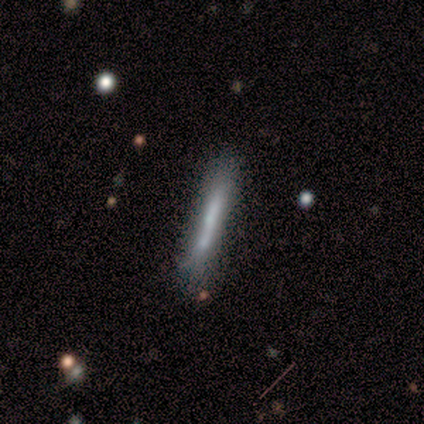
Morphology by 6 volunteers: smooth-or-featured: smooth: 67% | featured or disk: 33% | star or artifact: 0%
  how-rounded: cigar-shaped: 100% | round: 0% | in between: 0%
  merging: none: 67% | merger: 33% | minor disturbance: 0% | major disturbance: 0%